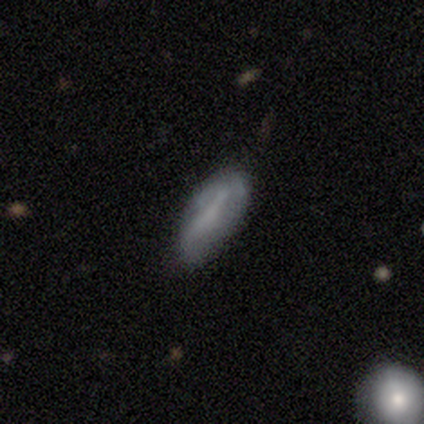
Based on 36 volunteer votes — Smooth or featured? smooth (50%)
How rounded? in between (72%)
Merging? none (75%)